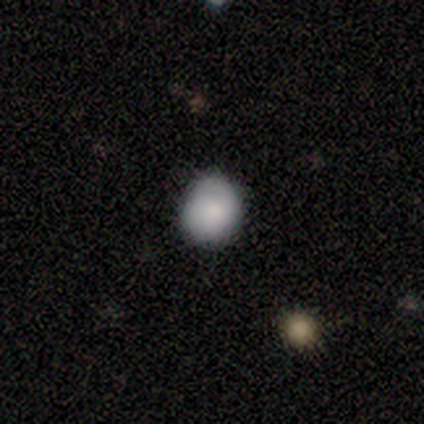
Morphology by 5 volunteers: type=smooth (80%); roundness=round (75%); merging=none (100%).